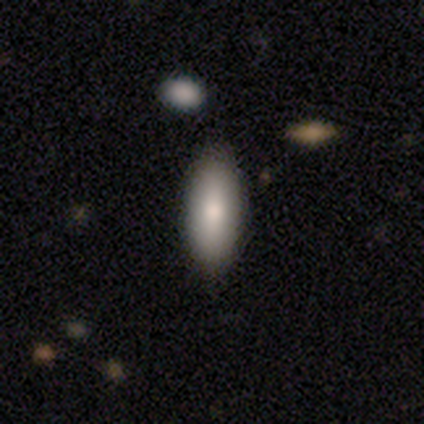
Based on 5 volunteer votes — Smooth or featured?
  - smooth: 80% *
  - featured or disk: 20%
  - star or artifact: 0%
How rounded?
  - in between: 100% *
  - round: 0%
  - cigar-shaped: 0%
Merging?
  - none: 100% *
  - minor disturbance: 0%
  - major disturbance: 0%
  - merger: 0%